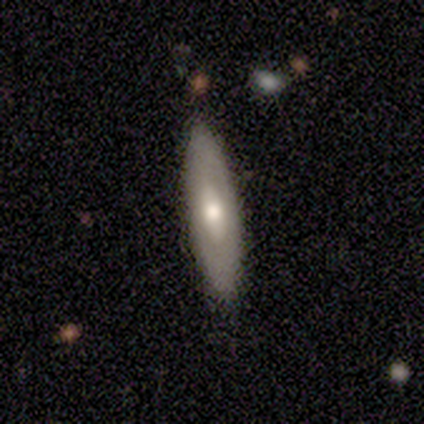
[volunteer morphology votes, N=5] Smooth or featured?
  - featured or disk: 60% *
  - smooth: 40%
  - star or artifact: 0%
Edge-on disk?
  - no: 100% *
  - yes: 0%
Bar?
  - no: 100% *
  - strong: 0%
  - weak: 0%
Spiral arms?
  - no: 100% *
  - yes: 0%
Bulge size?
  - moderate: 67% *
  - large: 33%
  - dominant: 0%
  - small: 0%
  - none: 0%
Merging?
  - none: 100% *
  - minor disturbance: 0%
  - major disturbance: 0%
  - merger: 0%